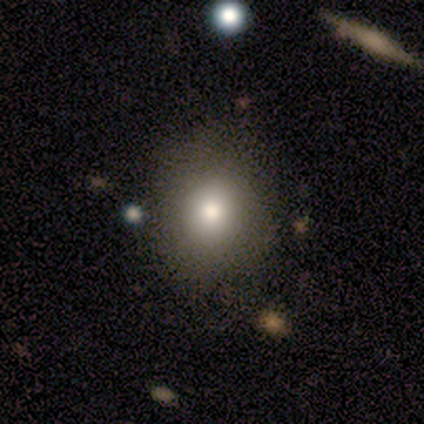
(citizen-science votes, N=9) Morphology: type=smooth (67%); roundness=round (50%, tied with in between); merging=none (57%).